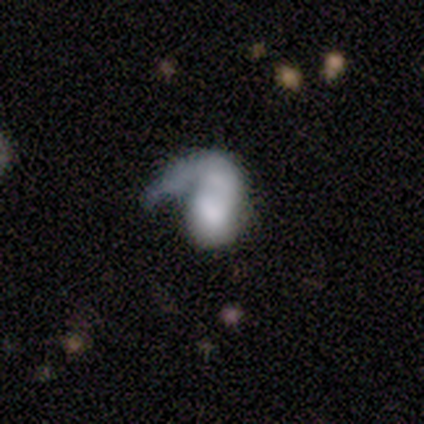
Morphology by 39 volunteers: This is possibly a featured or disk galaxy (51%). It is clearly not viewed edge-on (95%). Bar: clearly no (95%). Spiral arm pattern: likely yes (68%). Spiral arm count: clearly 1 (100%). Spiral winding: possibly loose (46%). Central bulge: marginally large (26%, tied with moderate). Merging: possibly major disturbance (47%).